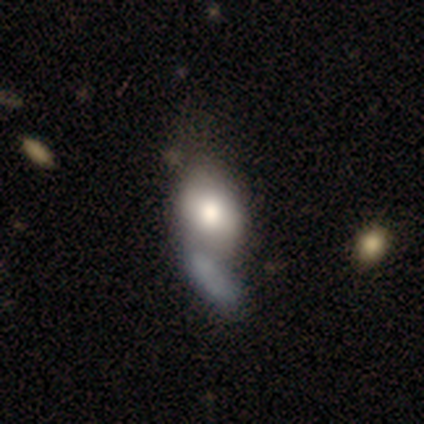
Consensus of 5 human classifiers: Volunteers were most divided on "smooth or featured" (2-way tie): smooth: 40%, featured or disk: 40%, star or artifact: 20%; "how rounded" (2-way tie): round: 50%, in between: 50%, cigar-shaped: 0%. More confident: merging — merger (50%).